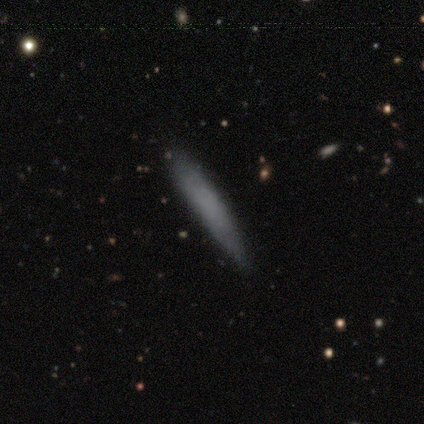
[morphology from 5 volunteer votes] A smooth galaxy with no disk features (80%) that is cigar-shaped (75%).

Vote fractions:
- Smooth or featured? smooth: 80% / featured or disk: 20% / star or artifact: 0%
- How rounded? cigar-shaped: 75% / in between: 25% / round: 0%
- Merging? none: 80% / minor disturbance: 20% / major disturbance: 0% / merger: 0%